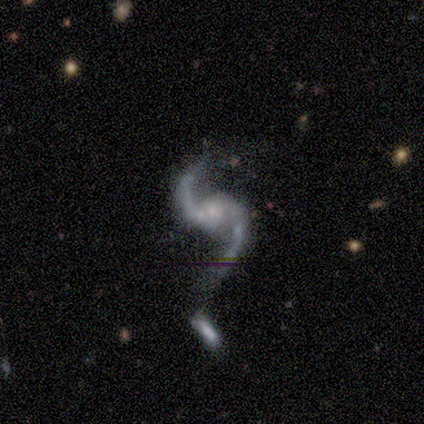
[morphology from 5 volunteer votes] Smooth or featured?
  - featured or disk: 100% *
  - smooth: 0%
  - star or artifact: 0%
Edge-on disk?
  - no: 100% *
  - yes: 0%
Bar?
  - no: 80% *
  - strong: 20%
  - weak: 0%
Spiral arms?
  - yes: 80% *
  - no: 20%
Spiral winding?
  - loose: 100% *
  - tight: 0%
  - medium: 0%
Spiral arm count?
  - 2: 100% *
  - 1: 0%
  - 3: 0%
  - 4: 0%
  - more than 4: 0%
  - can't tell: 0%
Bulge size?
  - small: 40% * (tied)
  - none: 40% * (tied)
  - moderate: 20%
  - dominant: 0%
  - large: 0%
Merging?
  - none: 40% * (tied)
  - merger: 40% * (tied)
  - major disturbance: 20%
  - minor disturbance: 0%